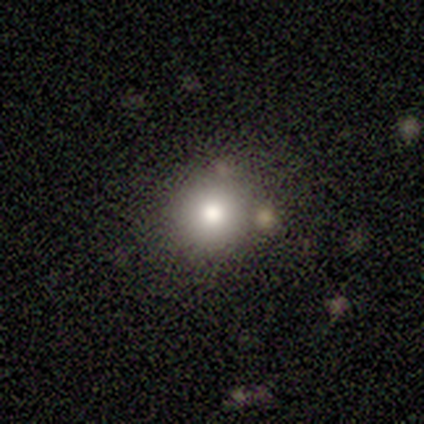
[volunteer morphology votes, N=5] smooth_or_featured: smooth (p=1.00)
how_rounded: round (p=1.00)
merging: none (p=1.00)